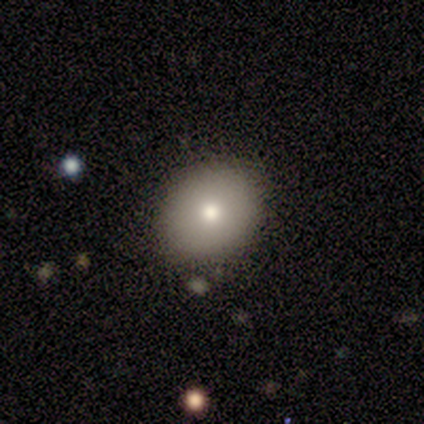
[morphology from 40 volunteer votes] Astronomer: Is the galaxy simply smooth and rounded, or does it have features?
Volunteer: smooth — 82%.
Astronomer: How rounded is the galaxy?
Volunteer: round — 67%.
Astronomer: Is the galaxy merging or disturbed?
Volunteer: none — 78%.